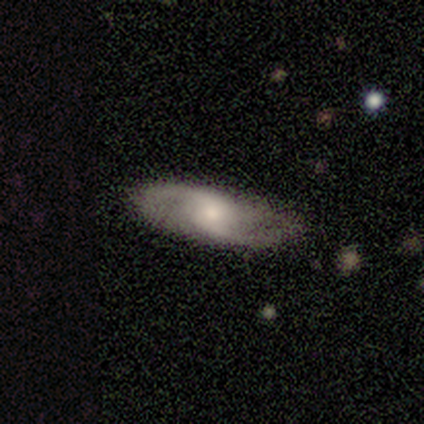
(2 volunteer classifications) A smooth galaxy with no disk features (50%, tied with featured or disk) that is in between round and cigar-shaped (100%). Merging: none (50%, tied with minor disturbance).